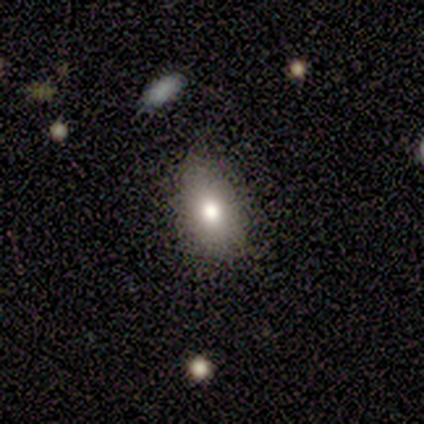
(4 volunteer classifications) Smooth or featured?
  - smooth: 100% *
  - featured or disk: 0%
  - star or artifact: 0%
How rounded?
  - in between: 75% *
  - round: 25%
  - cigar-shaped: 0%
Merging?
  - minor disturbance: 50% *
  - none: 25%
  - merger: 25%
  - major disturbance: 0%